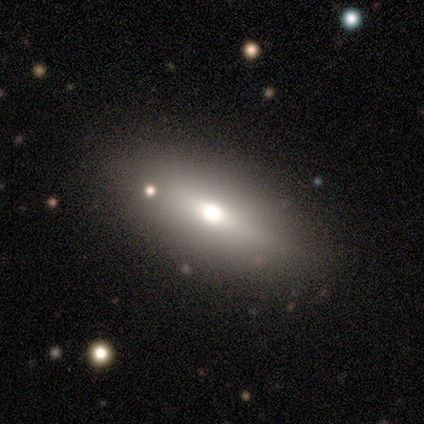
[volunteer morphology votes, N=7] Smooth or featured? smooth (57%)
How rounded? in between (50%, tied with cigar-shaped)
Merging? none (80%)